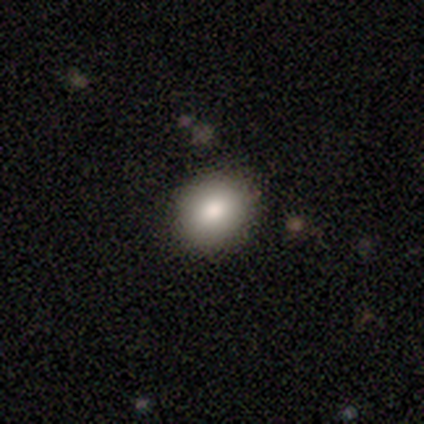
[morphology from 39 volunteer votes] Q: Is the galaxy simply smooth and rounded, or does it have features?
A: smooth — 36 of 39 (92%).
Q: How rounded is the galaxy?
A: round — 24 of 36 (67%).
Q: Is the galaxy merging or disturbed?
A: none — 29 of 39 (74%).